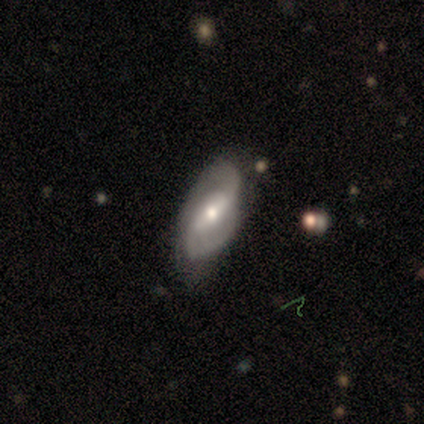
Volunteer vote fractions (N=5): smooth_or_featured: featured or disk (p=1.00)
disk_edge_on: no (p=1.00)
bar: weak (p=0.60) [alt: strong p=0.20]
has_spiral_arms: yes (p=1.00)
spiral_winding: medium (p=0.80) [alt: loose p=0.20]
spiral_arm_count: 2 (p=1.00)
bulge_size: moderate (p=0.60) [alt: small p=0.40]
merging: none (p=1.00)